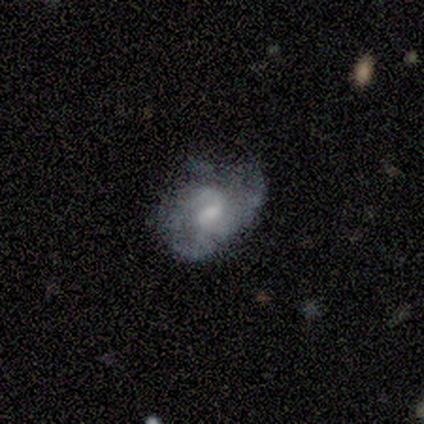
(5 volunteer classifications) Volunteers were most divided on "spiral arm count" (3-way tie): 1: 33%, 2: 33%, 3: 33%, 4: 0%, more than 4: 0%, can't tell: 0%; "merging" (2-way tie): minor disturbance: 40%, major disturbance: 40%, none: 20%, merger: 0%. More confident: edge-on disk — no (100%); smooth or featured — featured or disk (80%); spiral arms — yes (75%); spiral winding — medium (67%); bar — weak (50%); bulge size — small (50%).